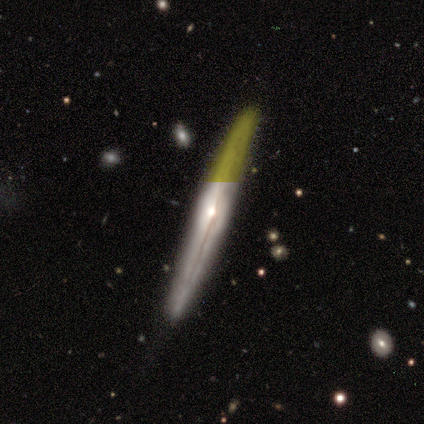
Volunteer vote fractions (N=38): featured or disk 76%, smooth 13%, star or artifact 11%. Down the decision tree: edge-on disk — yes (90%); edge-on bulge — rounded (73%); merging — none (91%).